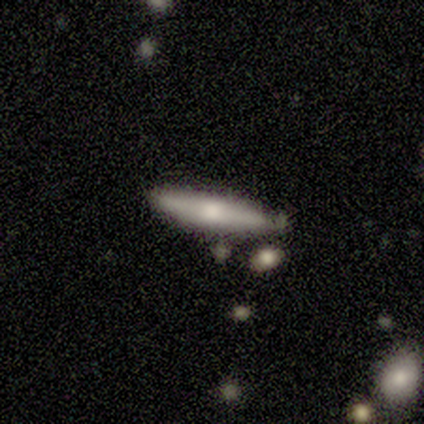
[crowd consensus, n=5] smooth-or-featured: smooth: 80% | featured or disk: 20% | star or artifact: 0%
  how-rounded: cigar-shaped: 100% | round: 0% | in between: 0%
  merging: none: 60% | major disturbance: 20% | merger: 20% | minor disturbance: 0%